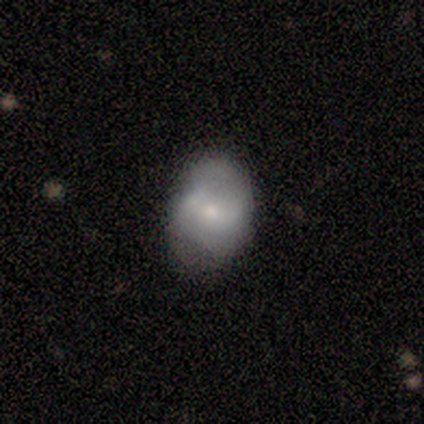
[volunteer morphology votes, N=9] Smooth or featured? 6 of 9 (67%) said smooth. How rounded? 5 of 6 (83%) said round. Merging? 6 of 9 (67%) said none.